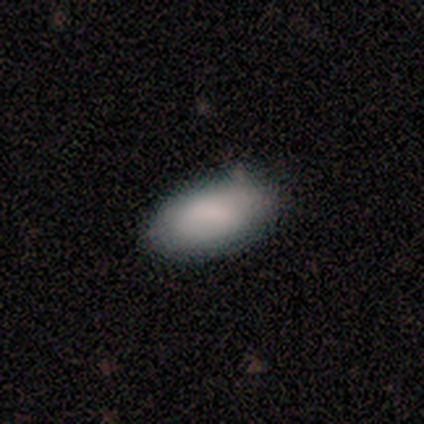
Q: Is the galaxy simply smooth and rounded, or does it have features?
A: smooth — 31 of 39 (79%).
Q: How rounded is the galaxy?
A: in between — 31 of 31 (100%).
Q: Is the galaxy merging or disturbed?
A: none — 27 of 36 (75%).